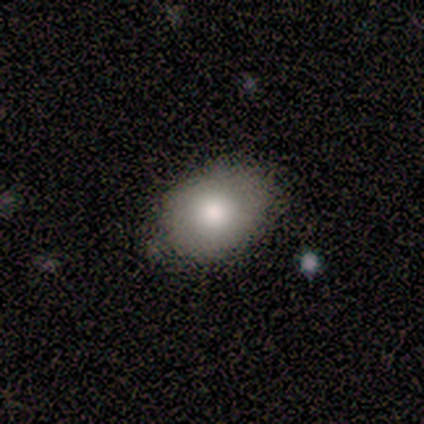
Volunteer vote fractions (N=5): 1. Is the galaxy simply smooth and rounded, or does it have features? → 60% smooth, 40% featured or disk, 0% star or artifact.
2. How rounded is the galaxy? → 67% in between, 33% round, 0% cigar-shaped.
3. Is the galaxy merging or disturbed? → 60% none, 20% minor disturbance, 20% merger, 0% major disturbance.